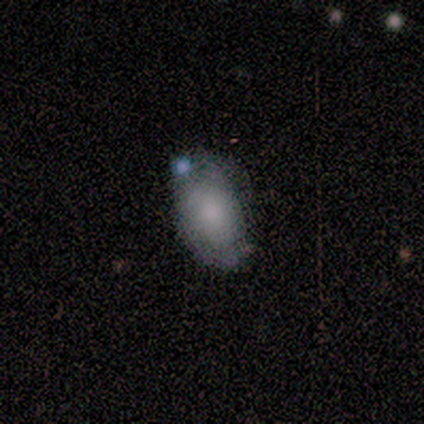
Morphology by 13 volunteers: This appears to be a smooth galaxy with no disk features (69%) that is in between round and cigar-shaped (100%). Merging: none (67%).